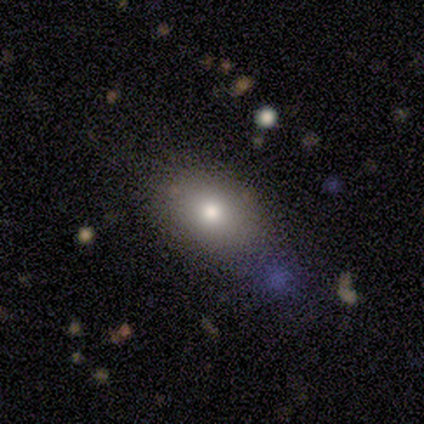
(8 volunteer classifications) A smooth galaxy with no disk features (75%) that is in between round and cigar-shaped (83%). Merging: none (67%).